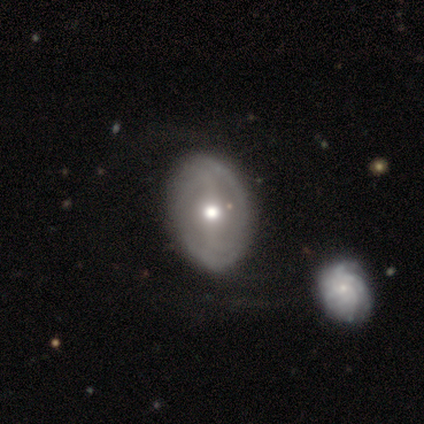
smooth-or-featured: featured or disk: 75% | smooth: 25% | star or artifact: 0%
  disk-edge-on: no: 67% | yes: 33%
    bar: strong: 50% (tied) | no: 50% (tied) | weak: 0%
    has-spiral-arms: yes: 100% | no: 0%
      spiral-winding: tight: 50% (tied) | medium: 50% (tied) | loose: 0%
      spiral-arm-count: 2: 50% (tied) | can't tell: 50% (tied) | 1: 0% | 3: 0% | 4: 0% | more than 4: 0%
    bulge-size: moderate: 50% (tied) | small: 50% (tied) | dominant: 0% | large: 0% | none: 0%
  merging: minor disturbance: 50% | none: 25% | merger: 25% | major disturbance: 0%